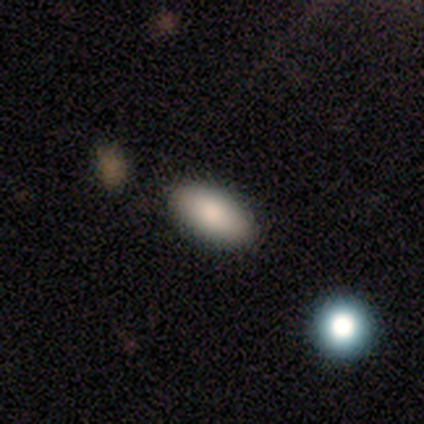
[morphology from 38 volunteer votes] Smooth or featured? smooth (82%)
How rounded? in between (90%)
Merging? none (81%)